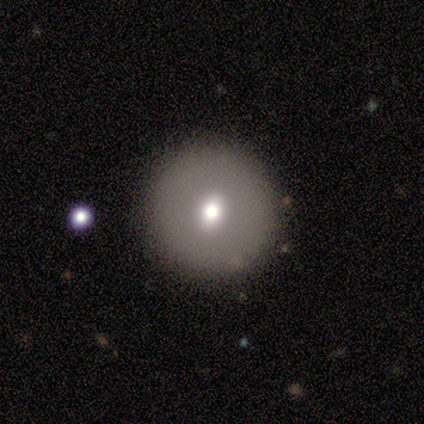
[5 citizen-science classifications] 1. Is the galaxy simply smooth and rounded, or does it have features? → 80% smooth, 20% star or artifact, 0% featured or disk.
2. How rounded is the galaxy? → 100% round, 0% in between, 0% cigar-shaped.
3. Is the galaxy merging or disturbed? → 100% none, 0% minor disturbance, 0% major disturbance, 0% merger.